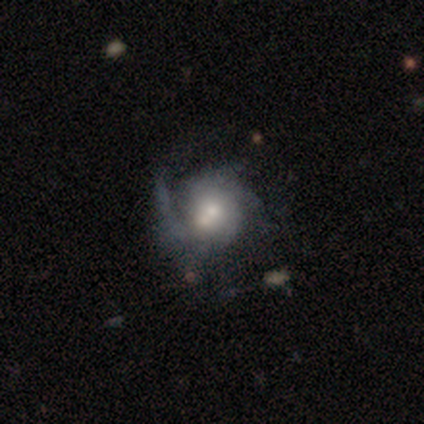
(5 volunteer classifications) This appears to be a featured or disk galaxy (80%) with no bar (75%), 1 (25%, tied with 2, 3 and can't tell) medium (50%) spiral arms (100%) and a moderate central bulge (50%). Merging: major disturbance (40%).